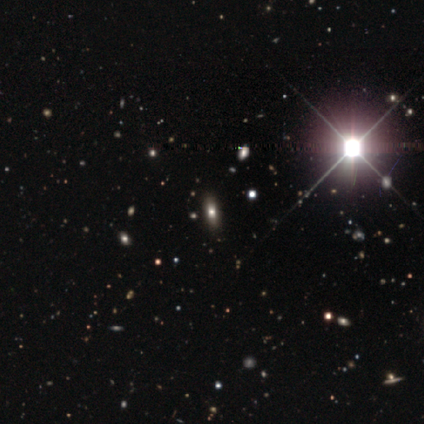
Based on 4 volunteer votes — Smooth or featured: smooth — 50% (tied with star or artifact — 50%)
How rounded: in between — 100%
Merging: none — 100%